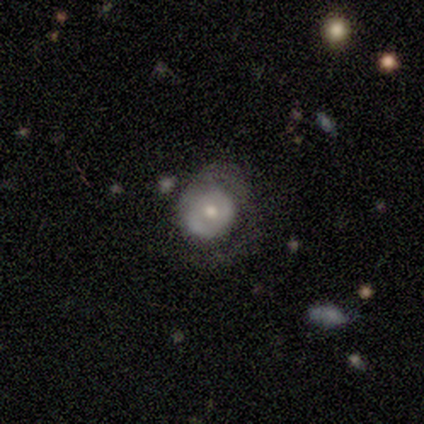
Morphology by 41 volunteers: A featured or disk galaxy (54%) with no bar (86%), 1 (53%) tight (60%) spiral arms (71%) and a moderate central bulge (67%). Merging: none (46%).